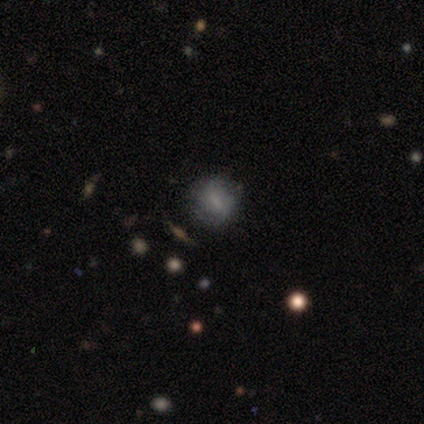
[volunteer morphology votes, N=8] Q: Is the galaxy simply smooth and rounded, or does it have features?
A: smooth — 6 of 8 (75%).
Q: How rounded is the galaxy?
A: round — 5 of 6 (83%).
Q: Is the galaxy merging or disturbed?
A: none — 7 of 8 (88%).